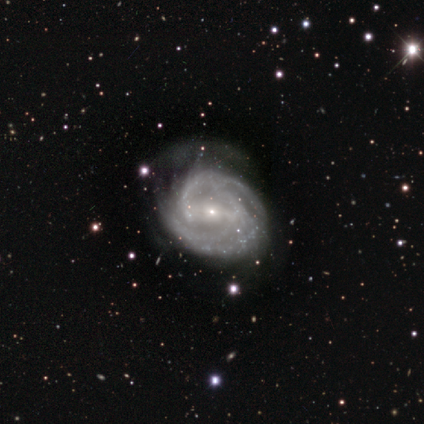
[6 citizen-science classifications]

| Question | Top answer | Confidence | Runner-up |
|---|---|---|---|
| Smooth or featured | featured or disk | 83% | smooth (17%) |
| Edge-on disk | no | 80% | yes (20%) |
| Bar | strong | 50% | weak (25%) |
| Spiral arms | yes | 100% | — |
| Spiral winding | tight | 50% | tied: medium (50%) |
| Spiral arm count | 3 | 75% | 2 (25%) |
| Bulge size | small | 100% | — |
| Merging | major disturbance | 50% | none (33%) |